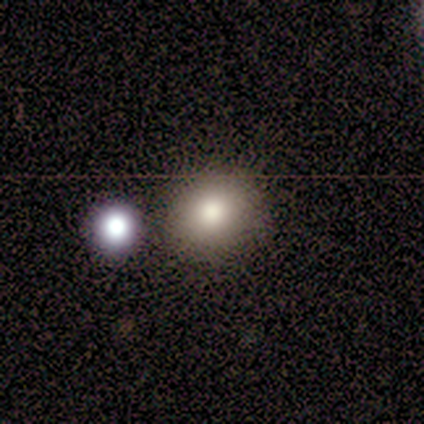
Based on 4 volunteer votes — smooth 50%, featured or disk 25%, star or artifact 25%. Down the decision tree: how rounded — round (100%); merging — none (67%).